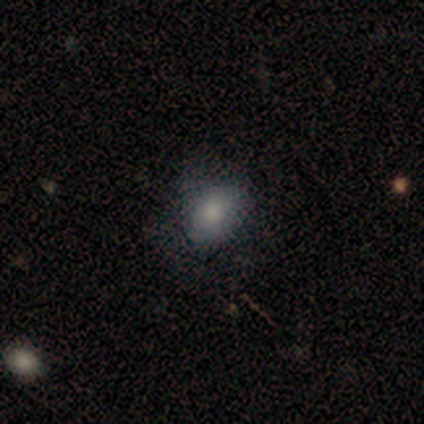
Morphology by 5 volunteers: smooth-or-featured: smooth: 80% | featured or disk: 20% | star or artifact: 0%
  how-rounded: in between: 75% | round: 25% | cigar-shaped: 0%
  merging: minor disturbance: 60% | none: 40% | major disturbance: 0% | merger: 0%